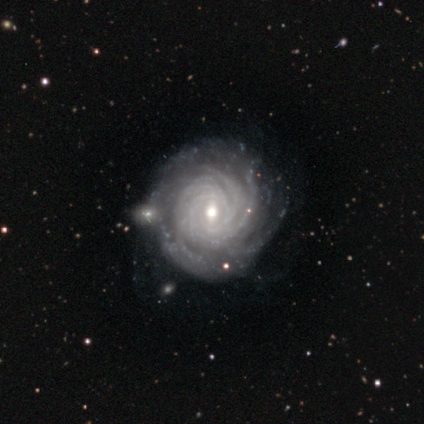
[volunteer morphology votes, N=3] This is clearly a featured or disk galaxy (100%). It is clearly not viewed edge-on (100%). Bar: likely weak (67%). Spiral arm pattern: clearly yes (100%). Spiral arm count: likely more than 4 (67%). Spiral winding: clearly tight (100%). Central bulge: likely moderate (67%). Merging: likely none (67%).